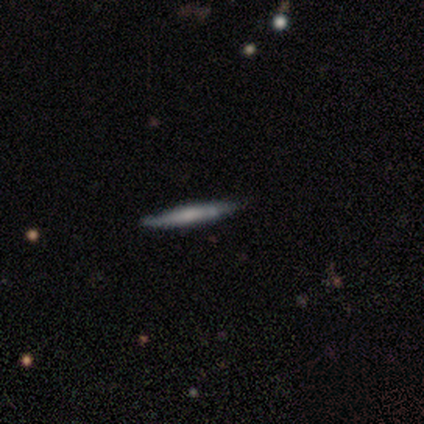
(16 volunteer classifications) Smooth or featured? 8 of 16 (50%, tied with featured or disk) said smooth. How rounded? 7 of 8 (88%) said cigar-shaped. Merging? 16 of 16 (100%) said none.